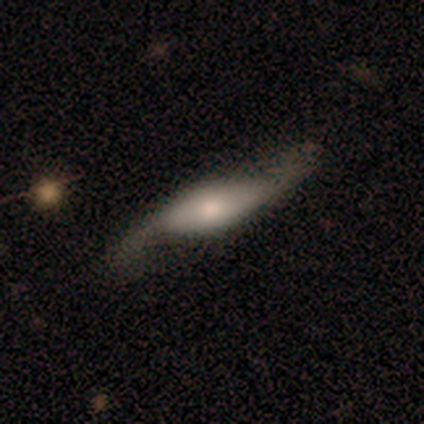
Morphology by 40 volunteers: A featured or disk galaxy (70%) with no bar (59%), 2 (89%) loose (83%) spiral arms (82%) and a moderate central bulge (68%). Merging: none (38%).